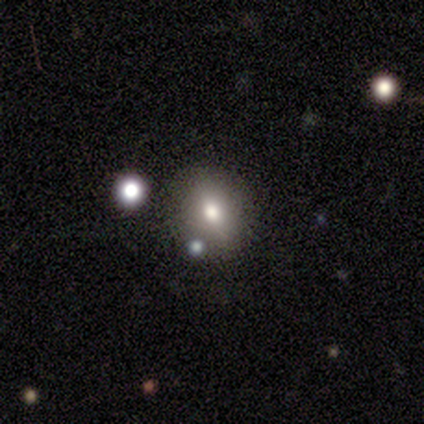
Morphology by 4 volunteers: A smooth galaxy with no disk features (75%) that is round (100%). Merging: none (100%).